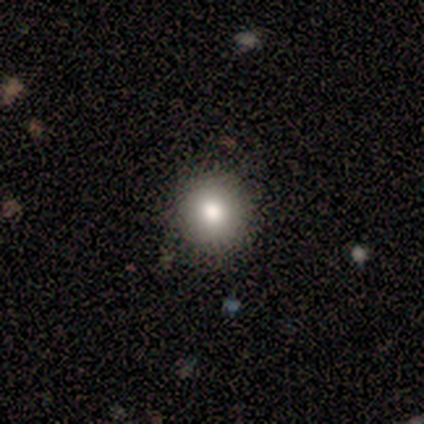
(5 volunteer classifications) A smooth galaxy with no disk features (80%) that is round (100%).

Vote fractions:
- Smooth or featured? smooth: 80% / star or artifact: 20% / featured or disk: 0%
- How rounded? round: 100% / in between: 0% / cigar-shaped: 0%
- Merging? none: 100% / minor disturbance: 0% / major disturbance: 0% / merger: 0%